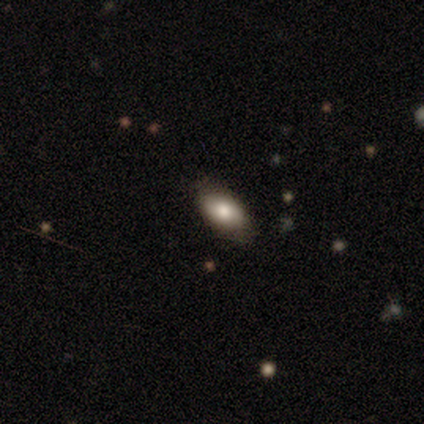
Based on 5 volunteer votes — Morphology: type=smooth (60%); roundness=in between (100%); merging=none (100%).